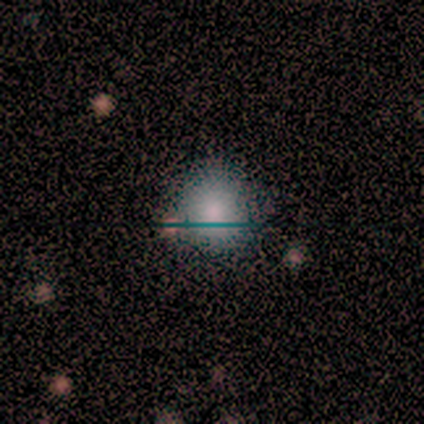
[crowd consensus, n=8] smooth-or-featured: smooth: 62% | featured or disk: 25% | star or artifact: 12%
  how-rounded: round: 100% | in between: 0% | cigar-shaped: 0%
  merging: none: 86% | minor disturbance: 14% | major disturbance: 0% | merger: 0%